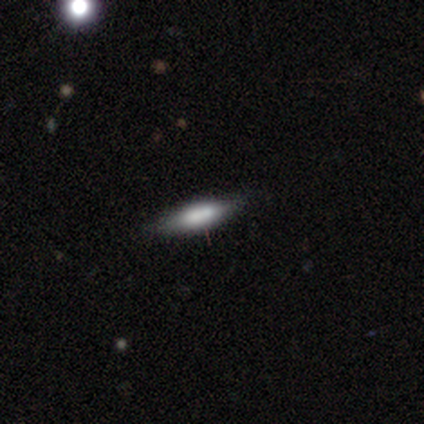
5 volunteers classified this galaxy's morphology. smooth 40% (tied), featured or disk 40% (tied), star or artifact 20%. Down the decision tree: how rounded — cigar-shaped (100%); merging — none (75%).